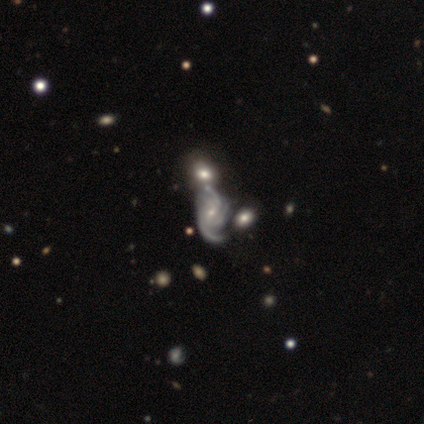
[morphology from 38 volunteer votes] Smooth or featured?
  - featured or disk: 95% *
  - smooth: 5%
  - star or artifact: 0%
Edge-on disk?
  - no: 100% *
  - yes: 0%
Bar?
  - no: 44% *
  - weak: 42%
  - strong: 14%
Spiral arms?
  - yes: 100% *
  - no: 0%
Spiral winding?
  - medium: 39% *
  - tight: 36%
  - loose: 25%
Spiral arm count?
  - 3: 44% *
  - 2: 17%
  - can't tell: 17%
  - 4: 14%
  - more than 4: 8%
  - 1: 0%
Bulge size?
  - small: 69% *
  - moderate: 31%
  - dominant: 0%
  - large: 0%
  - none: 0%
Merging?
  - none: 39% *
  - major disturbance: 24%
  - minor disturbance: 18%
  - merger: 18%